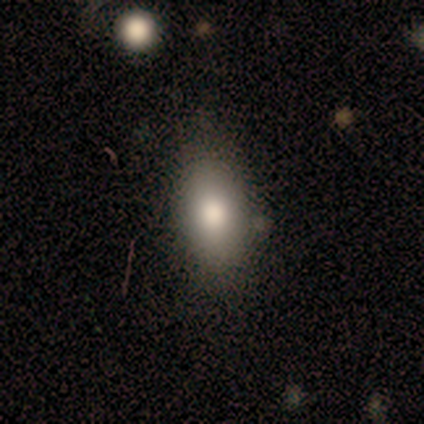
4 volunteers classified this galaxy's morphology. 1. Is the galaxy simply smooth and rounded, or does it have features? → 100% smooth, 0% featured or disk, 0% star or artifact.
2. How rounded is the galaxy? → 100% in between, 0% round, 0% cigar-shaped.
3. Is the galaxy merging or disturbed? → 75% none, 25% major disturbance, 0% minor disturbance, 0% merger.